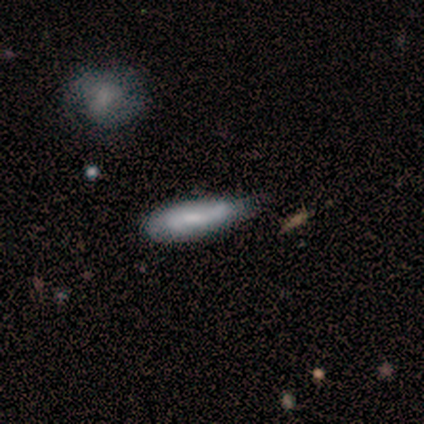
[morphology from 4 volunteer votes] A smooth galaxy with no disk features (100%) that is cigar-shaped (75%). Merging: none (75%).